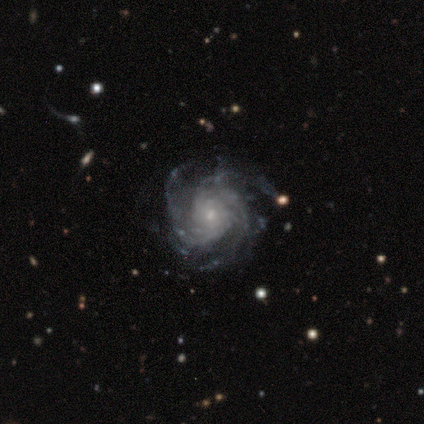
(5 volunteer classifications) Overall: featured or disk (100%). Edge-on disk: no (100%). Bar: no (60%; strong 20%). Spiral arms: yes (100%). Spiral arm count: 3 (60%; 4 20%). Spiral winding: tight (60%; medium 20%). Bulge size: small (100%). Merging: none (60%; minor disturbance 20%).